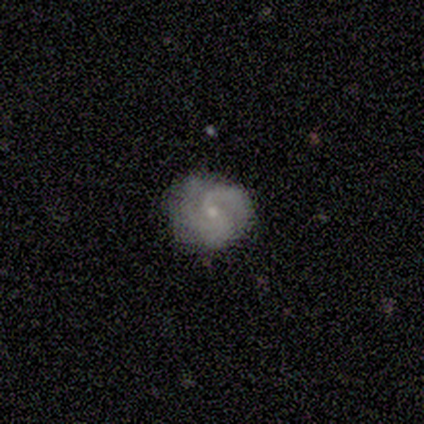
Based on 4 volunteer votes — featured or disk 75%, smooth 25%, star or artifact 0%. Down the decision tree: edge-on disk — no (100%); bar — no (100%); spiral arms — yes (100%); spiral arm count — 2 (33%, tied with 3 and can't tell); spiral winding — medium (100%); bulge size — small (67%); merging — none (75%).